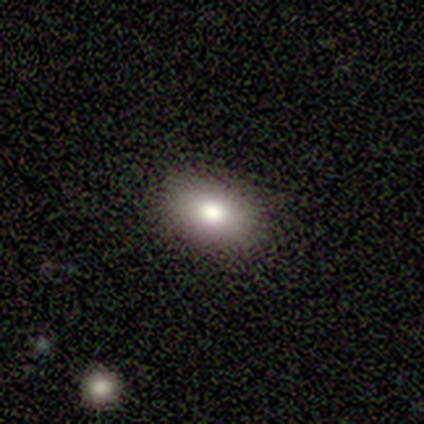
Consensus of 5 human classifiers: Volunteers were most divided on "smooth or featured": smooth: 80%, featured or disk: 20%, star or artifact: 0%. More confident: how rounded — in between (100%); merging — none (80%).